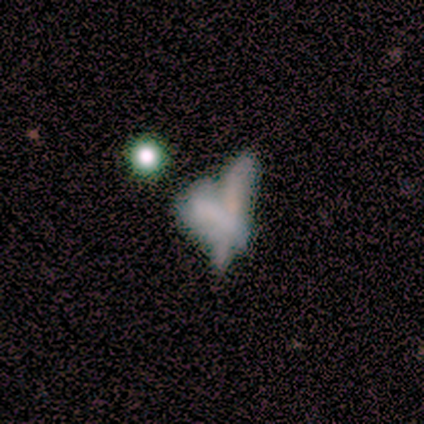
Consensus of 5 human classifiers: Smooth or featured? smooth (40%, tied with star or artifact)
How rounded? in between (50%, tied with cigar-shaped)
Merging? merger (67%)